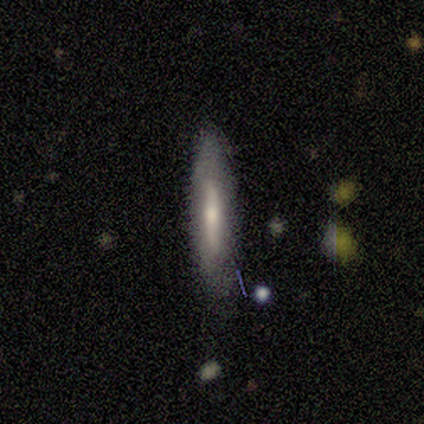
smooth-or-featured: smooth: 64% | featured or disk: 36% | star or artifact: 0%
  how-rounded: cigar-shaped: 100% | round: 0% | in between: 0%
  merging: none: 100% | minor disturbance: 0% | major disturbance: 0% | merger: 0%